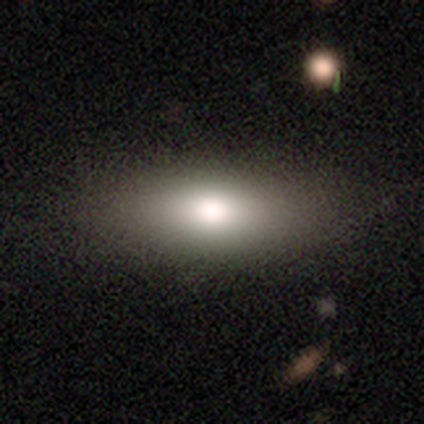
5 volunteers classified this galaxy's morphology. This is marginally a smooth galaxy (40%, tied with featured or disk). How rounded: clearly in between (100%). Merging: clearly none (100%).